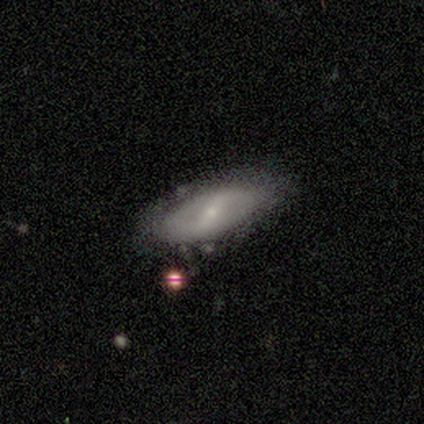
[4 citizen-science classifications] A smooth galaxy with no disk features (50%, tied with featured or disk) that is in between round and cigar-shaped (100%). Merging: none (75%).